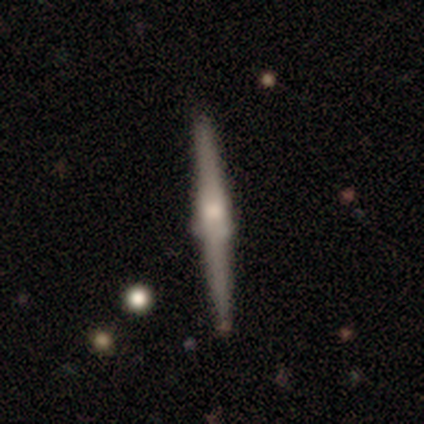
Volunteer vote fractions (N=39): smooth-or-featured: featured or disk: 82% | smooth: 18% | star or artifact: 0%
  disk-edge-on: yes: 100% | no: 0%
    edge-on-bulge: rounded: 66% | boxy: 31% | none: 3%
  merging: none: 87% | minor disturbance: 10% | merger: 3% | major disturbance: 0%